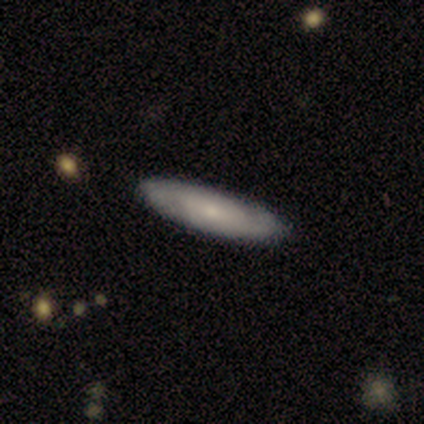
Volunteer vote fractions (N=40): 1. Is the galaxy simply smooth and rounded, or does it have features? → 52% smooth, 45% featured or disk, 2% star or artifact.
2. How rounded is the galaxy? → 81% cigar-shaped, 19% in between, 0% round.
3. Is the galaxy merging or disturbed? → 77% none, 5% merger, 3% minor disturbance, 3% major disturbance.